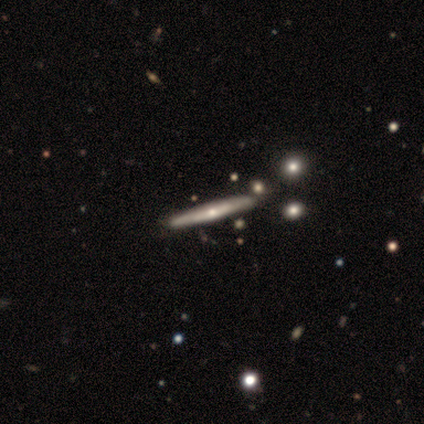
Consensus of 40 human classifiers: This is likely a featured or disk galaxy (75%). It is clearly viewed edge-on (90%). Edge-on bulge: likely rounded (74%). Merging: clearly none (81%).